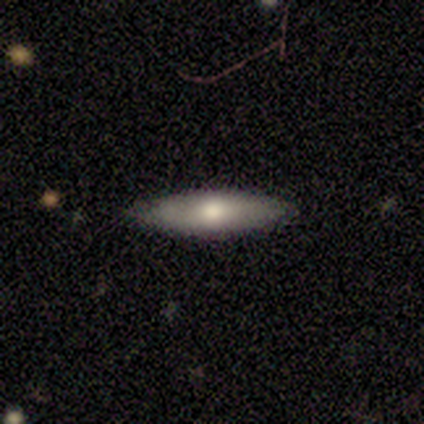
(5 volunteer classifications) A smooth galaxy with no disk features (60%) that is in between round and cigar-shaped (100%). Merging: none (80%).